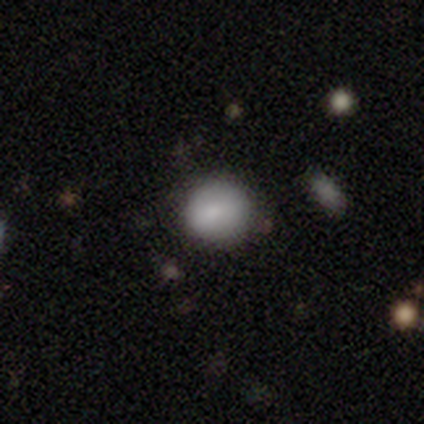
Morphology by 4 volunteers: Smooth or featured?
  - smooth: 100% *
  - featured or disk: 0%
  - star or artifact: 0%
How rounded?
  - round: 75% *
  - in between: 25%
  - cigar-shaped: 0%
Merging?
  - none: 75% *
  - minor disturbance: 25%
  - major disturbance: 0%
  - merger: 0%